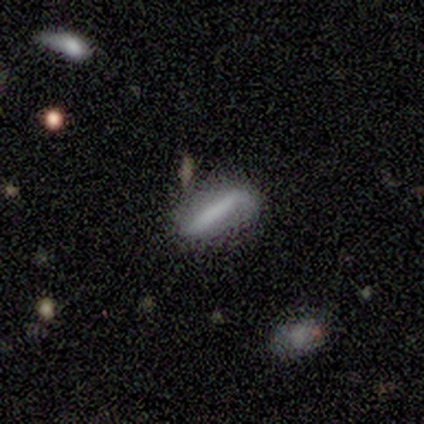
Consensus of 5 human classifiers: A smooth galaxy with no disk features (60%) that is cigar-shaped (67%). Merging: none (40%, tied with major disturbance).